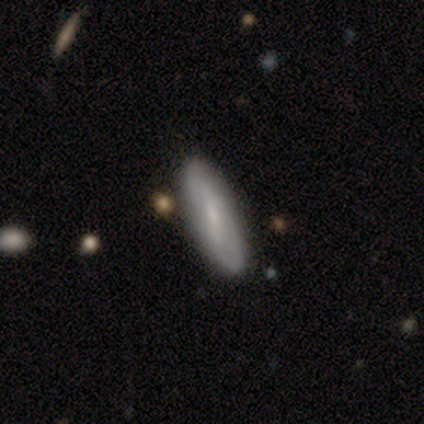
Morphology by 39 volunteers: Volunteers were most divided on "how rounded" (2-way tie): in between: 48%, cigar-shaped: 48%, round: 5%. More confident: merging — none (92%); smooth or featured — smooth (54%).